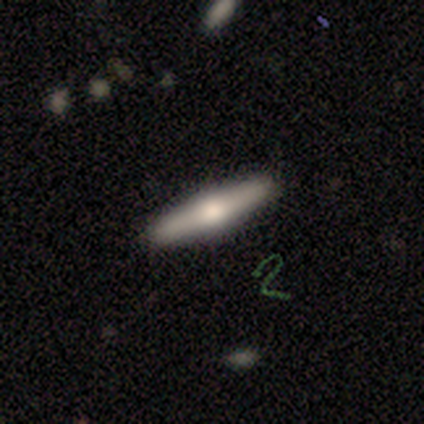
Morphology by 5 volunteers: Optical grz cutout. It shows a featured or disk galaxy (60%) viewed edge-on (100%) with a rounded central bulge (100%). Merging: none (100%).